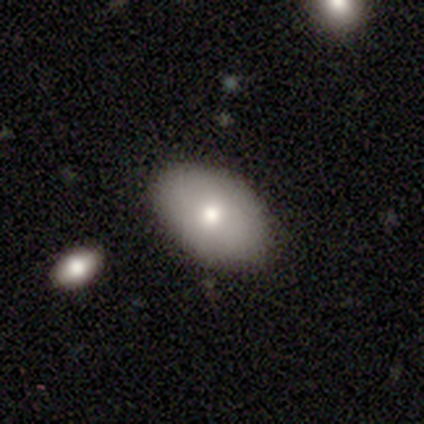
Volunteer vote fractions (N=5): smooth_or_featured: smooth (p=0.80) [alt: star or artifact p=0.20]
how_rounded: in between (p=1.00)
merging: none (p=1.00)